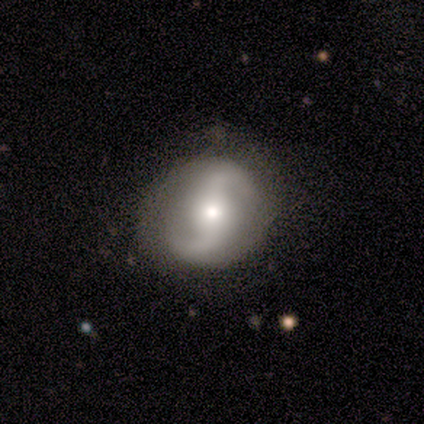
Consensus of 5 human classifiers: featured or disk 100%, smooth 0%, star or artifact 0%. Down the decision tree: edge-on disk — no (100%); bar — strong (40%, tied with weak); spiral arms — yes (100%); spiral arm count — 2 (100%); spiral winding — medium (60%); bulge size — moderate (100%); merging — none (100%).